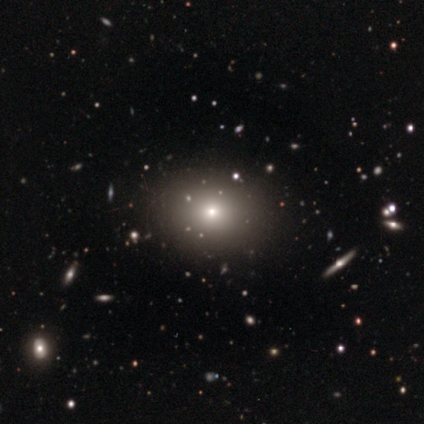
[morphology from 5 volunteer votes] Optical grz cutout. It shows a smooth galaxy with no disk features (80%) that is round (75%). Merging: none (100%).